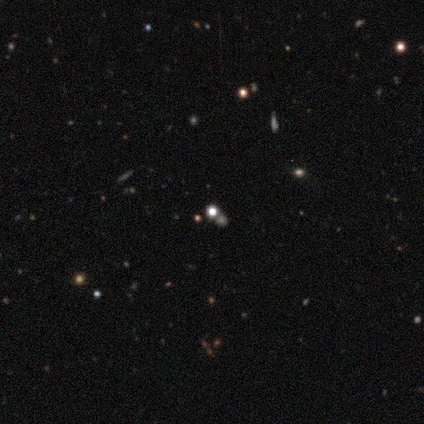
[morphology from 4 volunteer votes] star or artifact 50%, smooth 25%, featured or disk 25%.